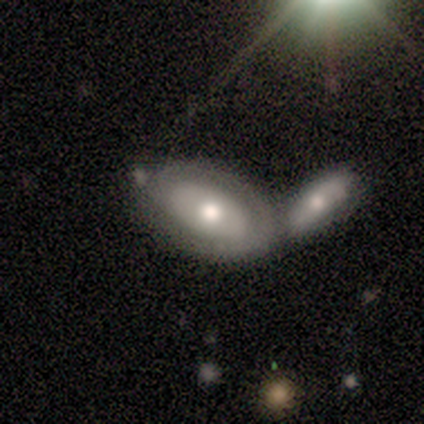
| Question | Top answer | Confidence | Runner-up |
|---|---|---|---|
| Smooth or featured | featured or disk | 67% | smooth (33%) |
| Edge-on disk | no | 100% | — |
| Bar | strong | 50% | tied: no (50%) |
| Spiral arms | yes | 100% | — |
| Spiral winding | tight | 100% | — |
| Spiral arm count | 1 | 50% | tied: can't tell (50%) |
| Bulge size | large | 50% | tied: moderate (50%) |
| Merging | merger | 67% | none (33%) |